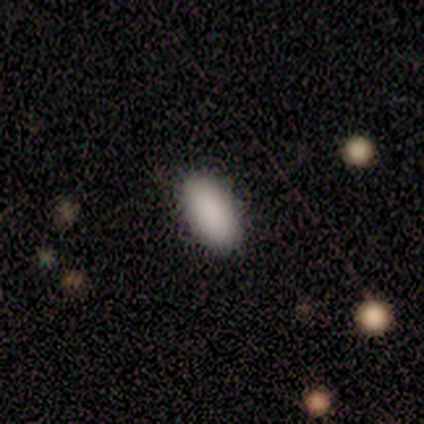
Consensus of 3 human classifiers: Smooth or featured? 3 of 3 (100%) said smooth. How rounded? 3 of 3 (100%) said in between. Merging? 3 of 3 (100%) said none.